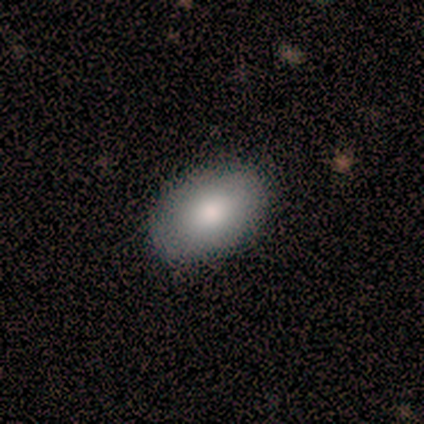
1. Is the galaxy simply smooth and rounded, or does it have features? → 84% smooth, 11% featured or disk, 5% star or artifact.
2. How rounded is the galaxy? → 94% in between, 6% round, 0% cigar-shaped.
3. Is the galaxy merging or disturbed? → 92% none, 8% minor disturbance, 0% major disturbance, 0% merger.